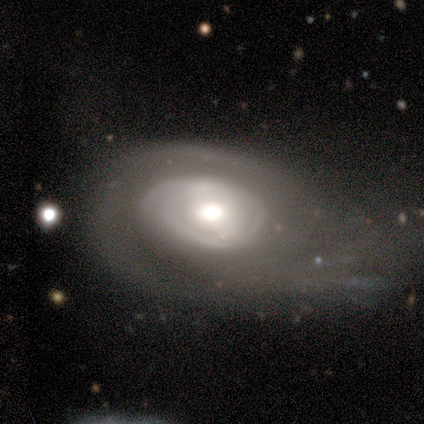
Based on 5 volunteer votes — smooth-or-featured: featured or disk: 60% | smooth: 40% | star or artifact: 0%
  disk-edge-on: no: 67% | yes: 33%
    bar: strong: 50% (tied) | weak: 50% (tied) | no: 0%
    has-spiral-arms: yes: 100% | no: 0%
      spiral-winding: tight: 100% | medium: 0% | loose: 0%
      spiral-arm-count: 1: 50% (tied) | 3: 50% (tied) | 2: 0% | 4: 0% | more than 4: 0% | can't tell: 0%
    bulge-size: large: 50% (tied) | moderate: 50% (tied) | dominant: 0% | small: 0% | none: 0%
  merging: minor disturbance: 40% (tied) | major disturbance: 40% (tied) | merger: 20% | none: 0%